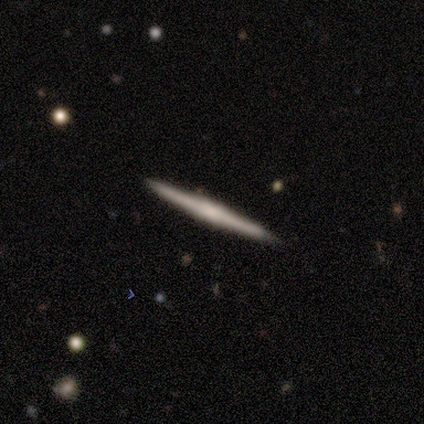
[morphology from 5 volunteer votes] Smooth or featured? 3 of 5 (60%) said smooth. How rounded? 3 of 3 (100%) said cigar-shaped. Merging? 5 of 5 (100%) said none.